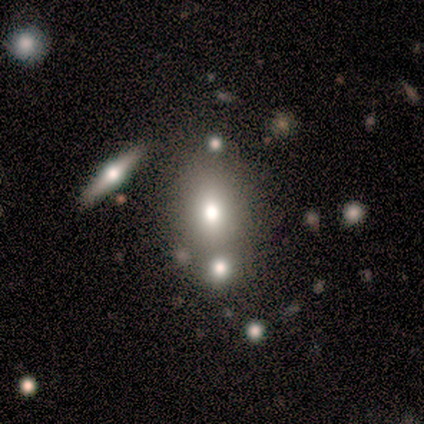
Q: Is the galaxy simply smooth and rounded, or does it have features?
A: smooth — 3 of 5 (60%).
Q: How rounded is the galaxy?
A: in between — 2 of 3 (67%).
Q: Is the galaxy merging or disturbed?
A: merger — 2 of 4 (50%).